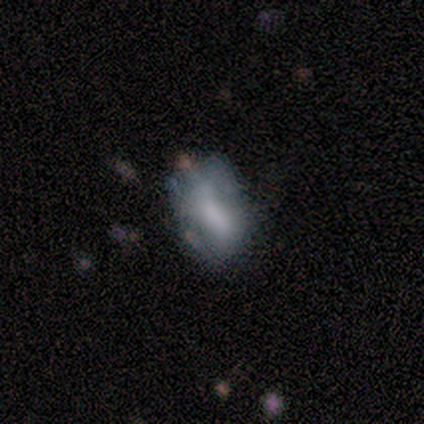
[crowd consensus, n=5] This is likely a smooth galaxy (60%). How rounded: clearly in between (100%). Merging: clearly minor disturbance (80%).